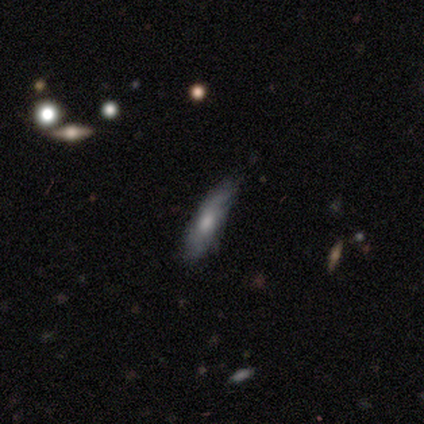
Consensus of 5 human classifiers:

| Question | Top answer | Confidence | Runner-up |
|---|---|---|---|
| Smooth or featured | featured or disk | 60% | smooth (40%) |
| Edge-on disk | yes | 67% | no (33%) |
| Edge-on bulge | rounded | 100% | — |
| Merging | none | 40% | tied: minor disturbance (40%) |